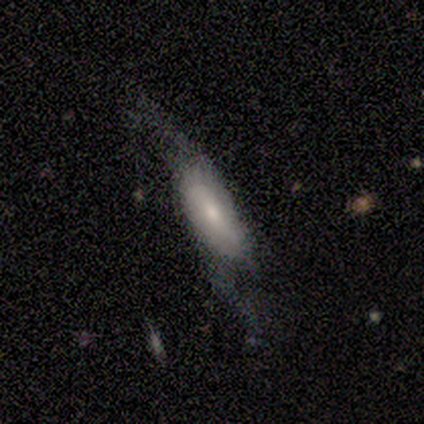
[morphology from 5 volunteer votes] smooth 40% (tied), featured or disk 40% (tied), star or artifact 20%. Down the decision tree: how rounded — in between (100%); merging — major disturbance (50%).